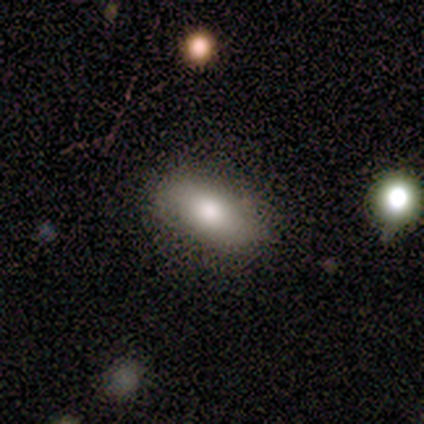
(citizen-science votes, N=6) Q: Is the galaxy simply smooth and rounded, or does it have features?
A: smooth — 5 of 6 (83%).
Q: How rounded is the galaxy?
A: in between — 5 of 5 (100%).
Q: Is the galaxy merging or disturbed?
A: none — 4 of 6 (67%).